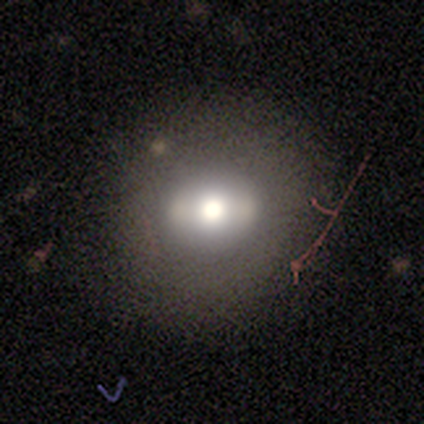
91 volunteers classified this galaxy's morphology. A smooth galaxy with no disk features (54%) that is round (76%).

Vote fractions:
- Smooth or featured? smooth: 54% / featured or disk: 31% / star or artifact: 15%
- How rounded? round: 76% / in between: 24% / cigar-shaped: 0%
- Merging? none: 81% / minor disturbance: 14% / major disturbance: 3% / merger: 3%